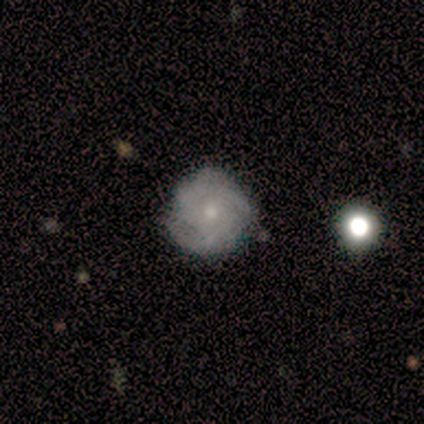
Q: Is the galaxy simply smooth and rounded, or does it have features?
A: featured or disk — 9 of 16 (56%).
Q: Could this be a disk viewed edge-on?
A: no — 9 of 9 (100%).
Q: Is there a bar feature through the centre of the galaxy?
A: no — 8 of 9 (89%).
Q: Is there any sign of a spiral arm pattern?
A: yes — 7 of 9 (78%).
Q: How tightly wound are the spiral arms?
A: tight — 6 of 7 (86%).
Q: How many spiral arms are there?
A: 2 — 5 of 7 (71%).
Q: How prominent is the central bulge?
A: small — 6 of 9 (67%).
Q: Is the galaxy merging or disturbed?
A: none — 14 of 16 (88%).